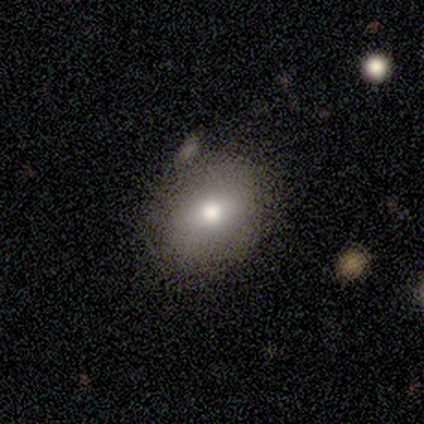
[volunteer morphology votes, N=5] This appears to be a smooth galaxy with no disk features (80%) that is in between round and cigar-shaped (75%). Merging: none (80%).